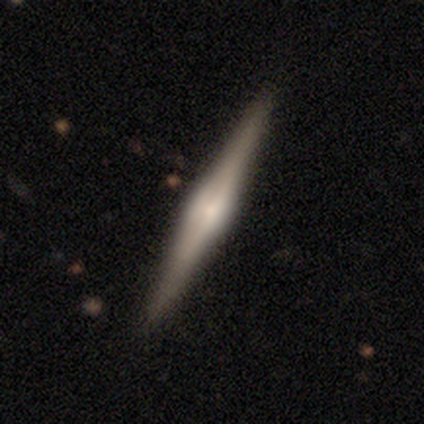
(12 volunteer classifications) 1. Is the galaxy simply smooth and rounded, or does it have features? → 83% featured or disk, 17% smooth, 0% star or artifact.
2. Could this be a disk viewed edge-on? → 100% yes, 0% no.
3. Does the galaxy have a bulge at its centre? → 80% rounded, 20% boxy, 0% none.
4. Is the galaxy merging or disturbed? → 100% none, 0% minor disturbance, 0% major disturbance, 0% merger.